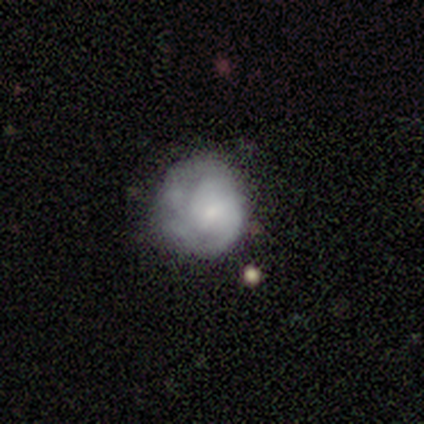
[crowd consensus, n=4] Smooth or featured: smooth — 50% (tied with featured or disk — 50%)
How rounded: round — 100%
Merging: none — 50% (tied with minor disturbance — 50%)